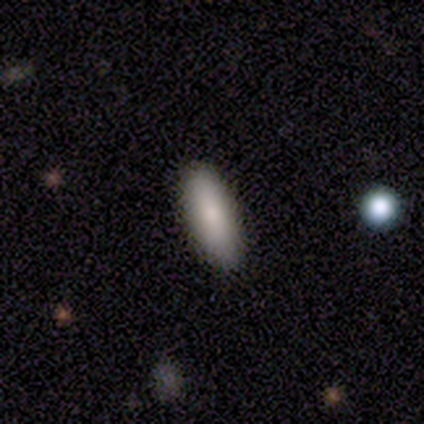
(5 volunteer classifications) smooth-or-featured: smooth: 100% | featured or disk: 0% | star or artifact: 0%
  how-rounded: in between: 80% | cigar-shaped: 20% | round: 0%
  merging: none: 100% | minor disturbance: 0% | major disturbance: 0% | merger: 0%